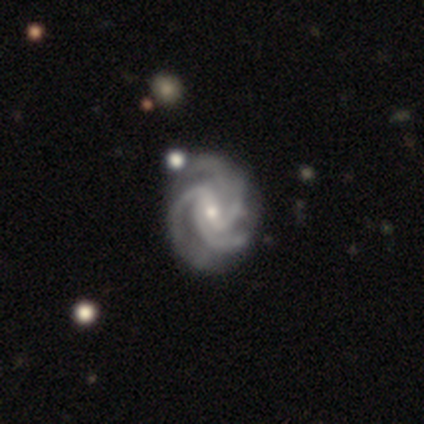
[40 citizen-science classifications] Smooth or featured?
  - featured or disk: 95% *
  - smooth: 5%
  - star or artifact: 0%
Edge-on disk?
  - no: 100% *
  - yes: 0%
Bar?
  - weak: 50% *
  - strong: 29%
  - no: 21%
Spiral arms?
  - yes: 100% *
  - no: 0%
Spiral winding?
  - tight: 58% *
  - medium: 39%
  - loose: 3%
Spiral arm count?
  - 3: 50% *
  - 4: 39%
  - can't tell: 11%
  - 1: 0%
  - 2: 0%
  - more than 4: 0%
Bulge size?
  - small: 63% *
  - moderate: 32%
  - none: 5%
  - dominant: 0%
  - large: 0%
Merging?
  - none: 68% *
  - minor disturbance: 25%
  - major disturbance: 5%
  - merger: 2%